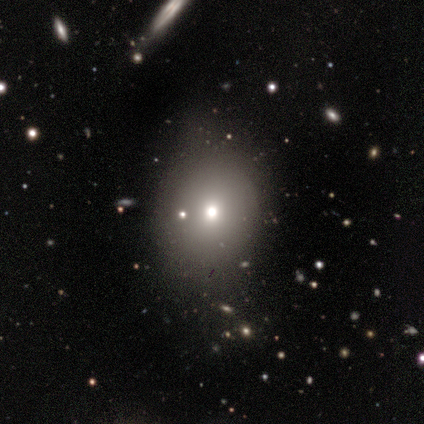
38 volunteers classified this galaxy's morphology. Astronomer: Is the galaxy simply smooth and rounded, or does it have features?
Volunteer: smooth — 71%.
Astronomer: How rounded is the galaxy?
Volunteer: round — 63%.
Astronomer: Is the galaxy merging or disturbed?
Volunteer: none — 65%.